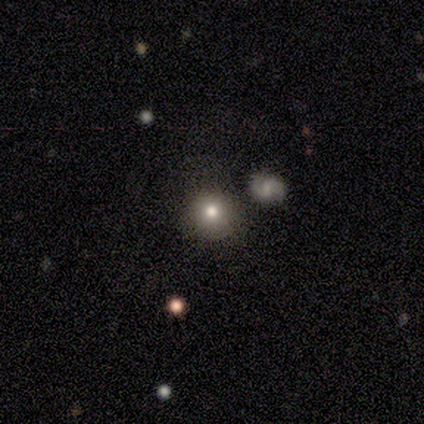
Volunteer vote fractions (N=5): Smooth or featured: smooth — 60% (featured or disk — 20%)
How rounded: round — 100%
Merging: none — 75% (major disturbance — 25%)